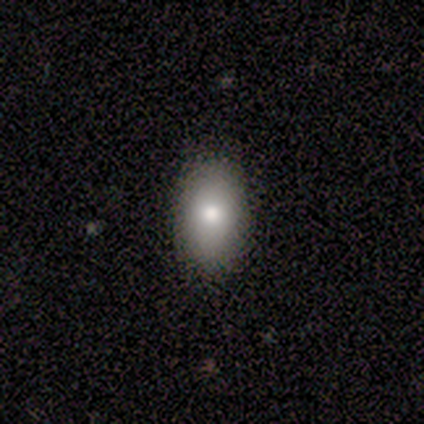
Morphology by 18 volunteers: This appears to be a smooth galaxy with no disk features (89%) that is in between round and cigar-shaped (100%). Merging: none (88%).